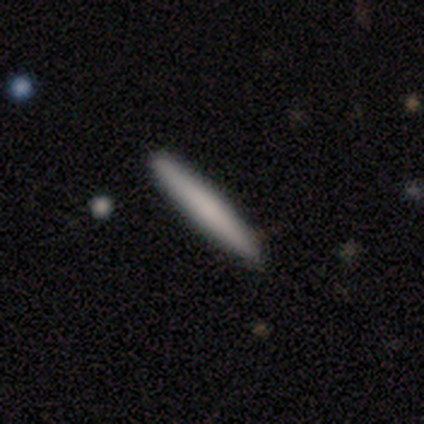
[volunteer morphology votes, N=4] This appears to be a smooth galaxy with no disk features (50%, tied with featured or disk) that is cigar-shaped (100%). Merging: none (100%).